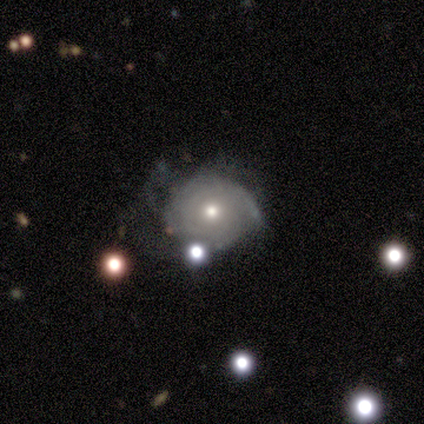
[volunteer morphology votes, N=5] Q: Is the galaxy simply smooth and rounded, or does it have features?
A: smooth — 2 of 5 (40%, tied with featured or disk).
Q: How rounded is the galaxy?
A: round — 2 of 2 (100%).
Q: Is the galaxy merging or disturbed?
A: minor disturbance — 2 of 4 (50%).